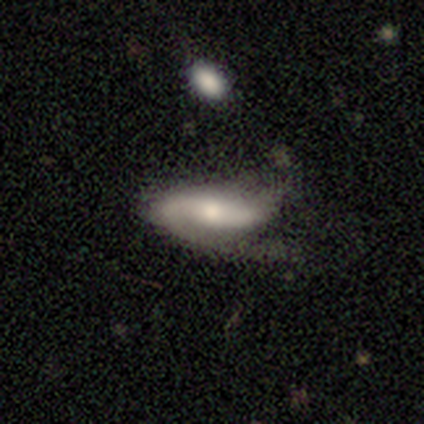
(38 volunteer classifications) smooth-or-featured: featured or disk: 74% | smooth: 24% | star or artifact: 3%
  disk-edge-on: no: 75% | yes: 25%
    bar: strong: 38% | weak: 33% | no: 29%
    has-spiral-arms: yes: 95% | no: 5%
      spiral-winding: loose: 45% | medium: 35% | tight: 20%
      spiral-arm-count: 2: 65% | 1: 20% | can't tell: 15% | 3: 0% | 4: 0% | more than 4: 0%
    bulge-size: moderate: 57% | small: 19% | none: 14% | large: 10% | dominant: 0%
  merging: minor disturbance: 35% | none: 32% | major disturbance: 32% | merger: 0%